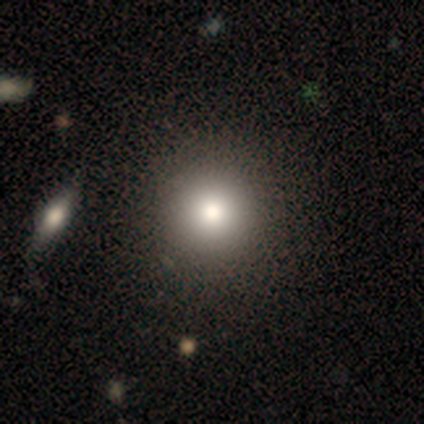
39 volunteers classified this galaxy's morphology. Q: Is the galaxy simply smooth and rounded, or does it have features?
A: smooth — 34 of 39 (87%).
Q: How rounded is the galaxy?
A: round — 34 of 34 (100%).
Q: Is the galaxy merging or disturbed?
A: none — 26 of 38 (68%).